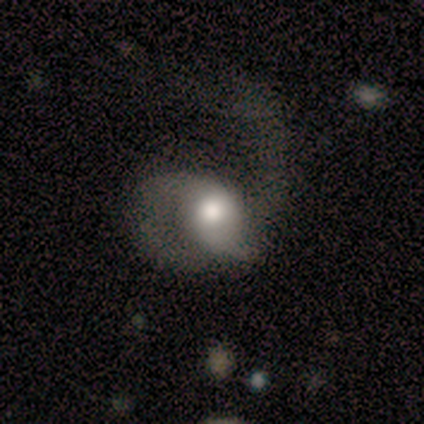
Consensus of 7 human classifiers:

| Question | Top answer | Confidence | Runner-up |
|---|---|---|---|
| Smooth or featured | featured or disk | 71% | smooth (29%) |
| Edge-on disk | no | 100% | — |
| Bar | no | 60% | weak (40%) |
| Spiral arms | yes | 100% | — |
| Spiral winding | medium | 60% | tight (20%) |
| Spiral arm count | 2 | 60% | 1 (40%) |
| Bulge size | moderate | 80% | large (20%) |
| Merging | major disturbance | 57% | none (29%) |